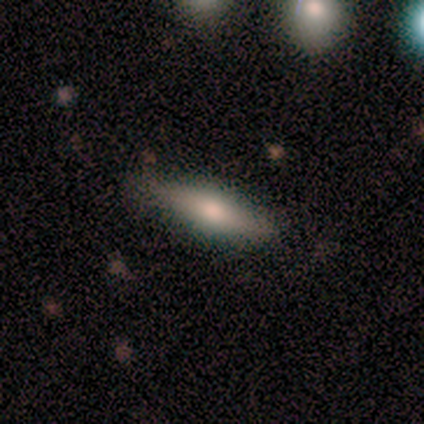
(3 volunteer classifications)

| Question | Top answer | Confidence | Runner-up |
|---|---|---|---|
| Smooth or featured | featured or disk | 67% | smooth (33%) |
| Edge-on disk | yes | 100% | — |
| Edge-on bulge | rounded | 100% | — |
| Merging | none | 33% | tied: minor disturbance (33%), merger (33%) |